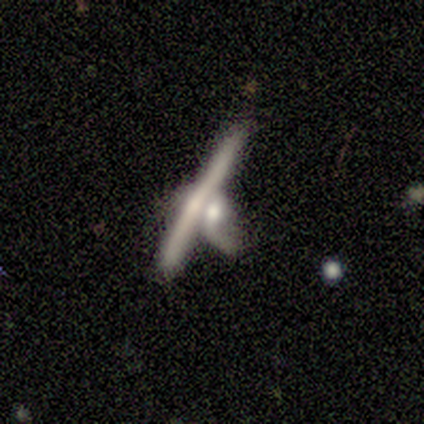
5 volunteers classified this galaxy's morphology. featured or disk 100%, smooth 0%, star or artifact 0%. Down the decision tree: edge-on disk — yes (80%); edge-on bulge — none (50%); merging — merger (40%).